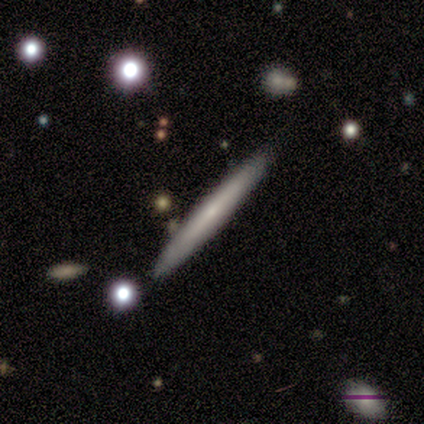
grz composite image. It shows a featured or disk galaxy (60%) viewed edge-on (100%) with no central bulge (67%). Merging: none (80%).